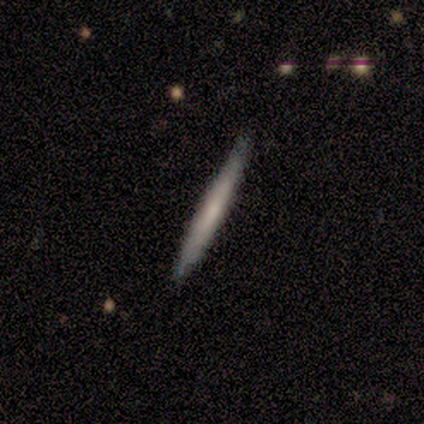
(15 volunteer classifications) smooth_or_featured: smooth (p=0.53) [alt: featured or disk p=0.47]
how_rounded: cigar-shaped (p=1.00)
merging: none (p=1.00)